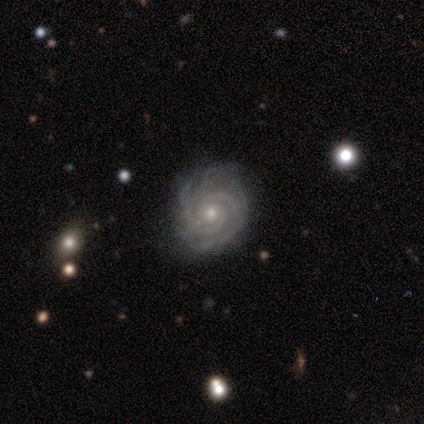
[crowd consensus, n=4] Q: Smooth or featured?
A: featured or disk (100%)
Q: Edge-on disk?
A: no (100%)
Q: Bar?
A: no (75%); runner-up: weak (25%)
Q: Spiral arms?
A: yes (100%)
Q: Spiral winding?
A: tight (100%)
Q: Spiral arm count?
A: 2 (75%); runner-up: can't tell (25%)
Q: Bulge size?
A: small (75%); runner-up: moderate (25%)
Q: Merging?
A: none (100%)